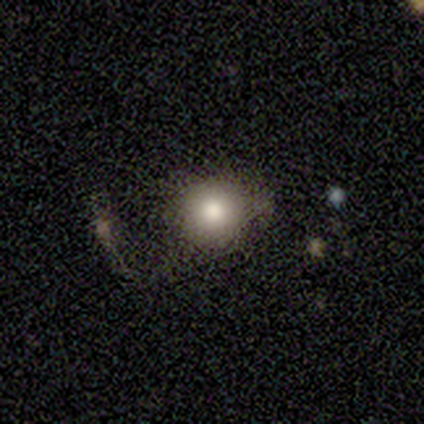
Overall: smooth (80%). How rounded: round (75%). Merging: none (25%, tied with minor disturbance, major disturbance and merger).